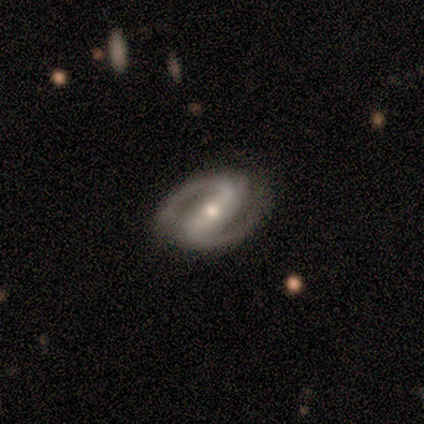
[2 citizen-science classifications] This is clearly a featured or disk galaxy (100%). It is clearly not viewed edge-on (100%). Bar: clearly strong (100%). Spiral arm pattern: possibly yes (50%, tied with no). Spiral arm count: clearly 2 (100%). Spiral winding: clearly tight (100%). Central bulge: clearly moderate (100%). Merging: clearly none (100%).